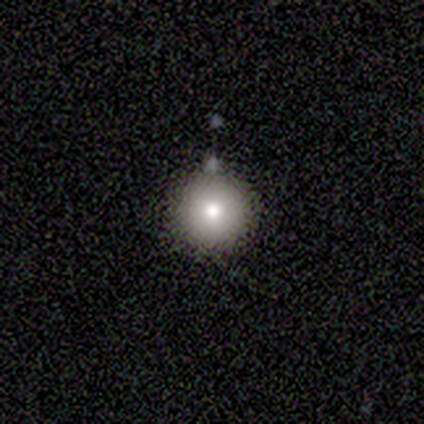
This is clearly a smooth galaxy (82%). How rounded: clearly round (100%). Merging: clearly none (91%).